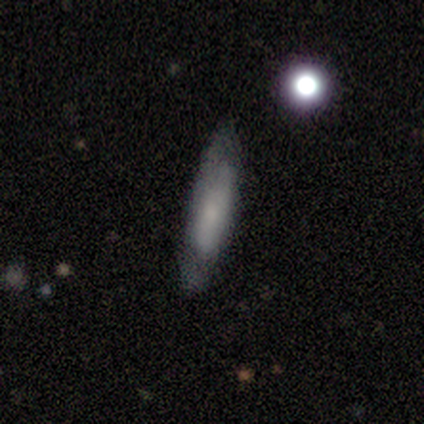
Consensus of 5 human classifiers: This appears to be a featured or disk galaxy (60%) with a strong bar (50%, tied with no), no spiral arms (100%) and a moderate central bulge (50%, tied with none). Merging: none (80%).